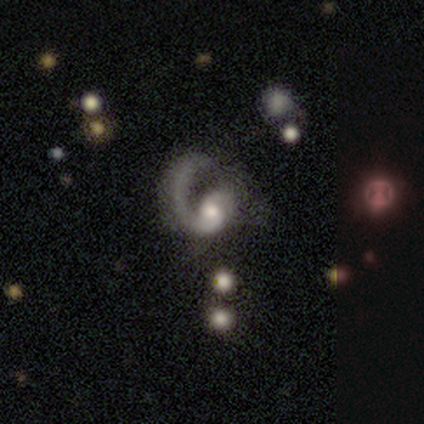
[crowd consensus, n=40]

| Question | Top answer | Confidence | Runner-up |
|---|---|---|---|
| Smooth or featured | featured or disk | 85% | smooth (10%) |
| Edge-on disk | no | 100% | — |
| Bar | no | 71% | weak (26%) |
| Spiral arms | yes | 94% | no (6%) |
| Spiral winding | loose | 53% | medium (47%) |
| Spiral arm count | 1 | 94% | 2 (6%) |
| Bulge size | moderate | 56% | small (24%) |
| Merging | none | 47% | tied: major disturbance (47%) |